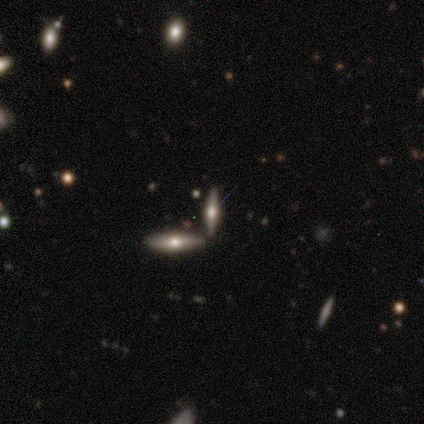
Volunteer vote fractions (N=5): Smooth or featured: smooth — 60% (featured or disk — 40%)
How rounded: in between — 67% (cigar-shaped — 33%)
Merging: none — 100%